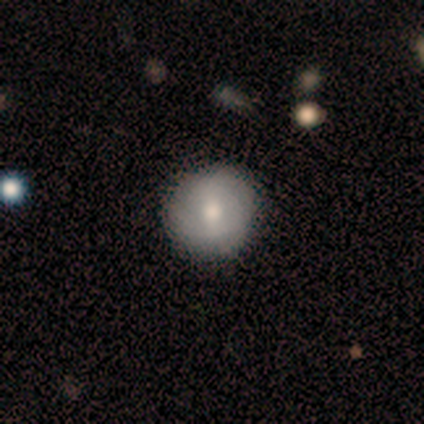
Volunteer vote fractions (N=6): Morphology: type=smooth (100%); roundness=round (100%); merging=none (83%).